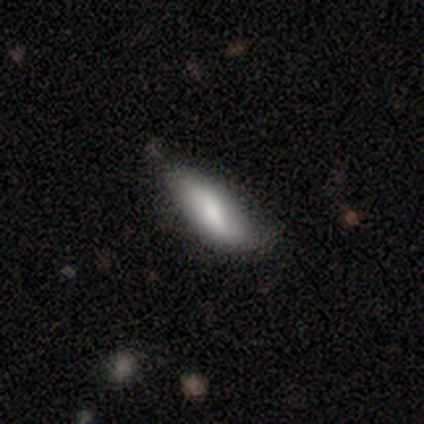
Smooth or featured: smooth — 50% (featured or disk — 25%)
How rounded: in between — 100%
Merging: none — 67% (minor disturbance — 33%)